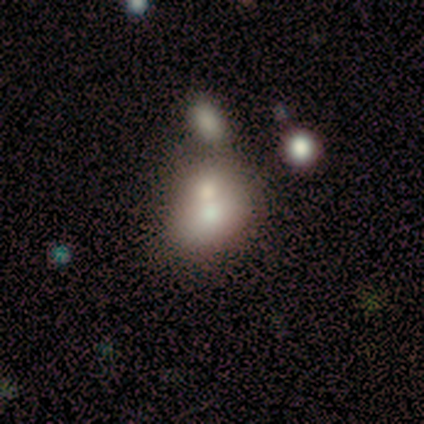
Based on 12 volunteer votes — Overall: smooth (67%). How rounded: round (50%, tied with in between). Merging: merger (82%).